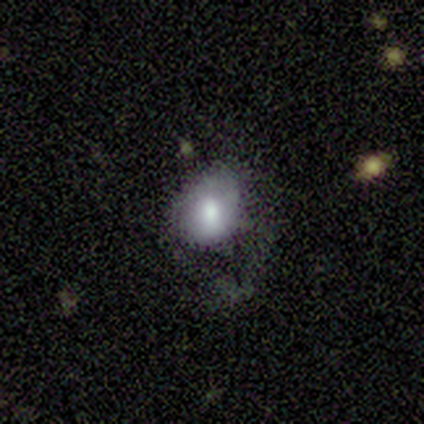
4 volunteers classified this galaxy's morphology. smooth-or-featured: smooth: 75% | featured or disk: 25% | star or artifact: 0%
  how-rounded: in between: 67% | round: 33% | cigar-shaped: 0%
  merging: minor disturbance: 50% | none: 25% | major disturbance: 25% | merger: 0%